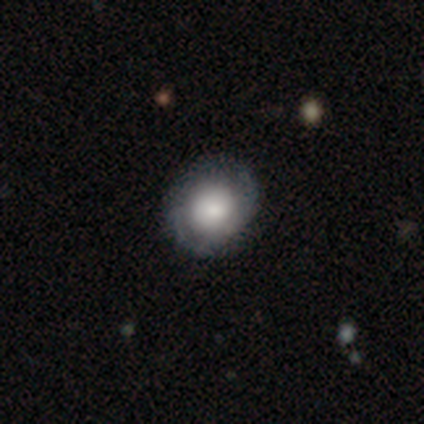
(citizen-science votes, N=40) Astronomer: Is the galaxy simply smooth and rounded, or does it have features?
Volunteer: featured or disk — 55% (runner-up: smooth, 40%).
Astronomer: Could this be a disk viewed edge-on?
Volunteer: no — 100%.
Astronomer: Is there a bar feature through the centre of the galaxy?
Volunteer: no — 86%.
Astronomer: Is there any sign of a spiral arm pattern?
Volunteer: yes — 82%.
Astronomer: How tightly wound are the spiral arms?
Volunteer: tight — 44% (runner-up: medium, 39%).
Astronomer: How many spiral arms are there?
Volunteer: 2 — 89%.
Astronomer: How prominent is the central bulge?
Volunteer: large — 55%.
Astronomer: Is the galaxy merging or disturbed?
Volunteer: none — 47%.